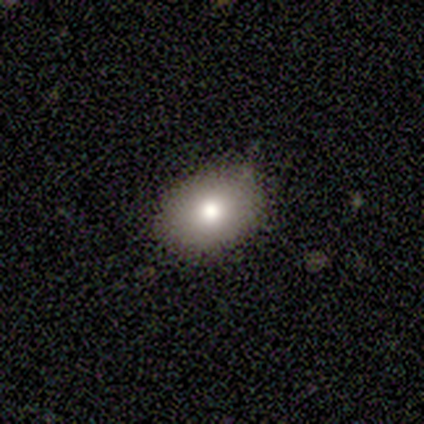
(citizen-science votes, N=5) Smooth or featured? smooth (80%)
How rounded? in between (75%)
Merging? none (60%)